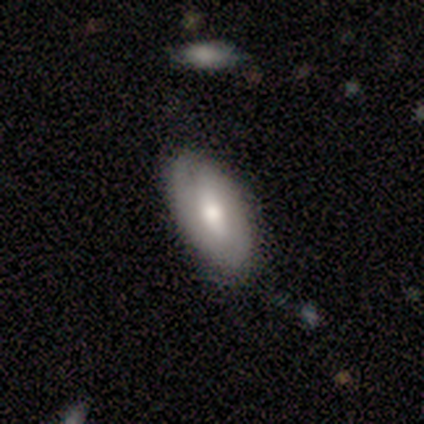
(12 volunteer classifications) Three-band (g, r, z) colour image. It shows a smooth galaxy with no disk features (67%) that is in between round and cigar-shaped (100%). Merging: none (73%).